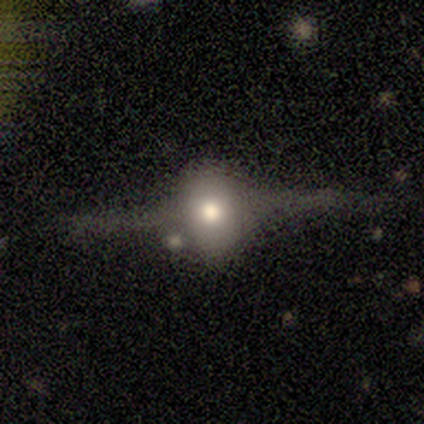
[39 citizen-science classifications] smooth-or-featured: featured or disk: 59% | smooth: 28% | star or artifact: 13%
  disk-edge-on: yes: 100% | no: 0%
    edge-on-bulge: rounded: 100% | boxy: 0% | none: 0%
  merging: none: 65% | minor disturbance: 18% | major disturbance: 18% | merger: 0%